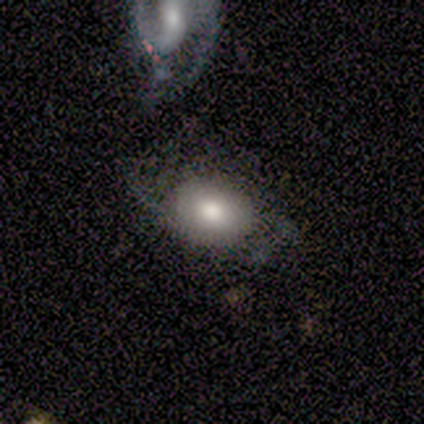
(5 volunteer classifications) smooth_or_featured: featured or disk (p=0.60) [alt: smooth p=0.40]
disk_edge_on: no (p=1.00)
bar: no (p=1.00)
has_spiral_arms: no (p=0.67) [alt: yes p=0.33]
bulge_size: moderate (p=0.67) [alt: large p=0.33]
merging: minor disturbance (p=0.40) [alt: none p=0.20]